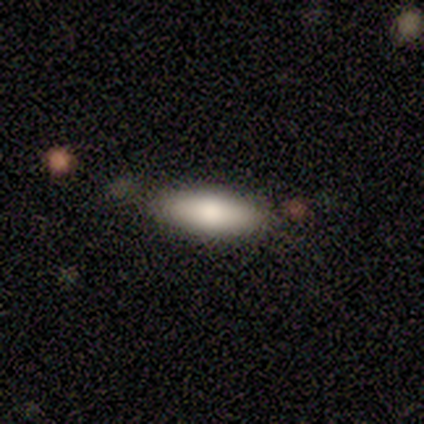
Smooth or featured? 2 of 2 (100%) said smooth. How rounded? 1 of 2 (50%, tied with cigar-shaped) said in between. Merging? 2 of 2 (100%) said none.